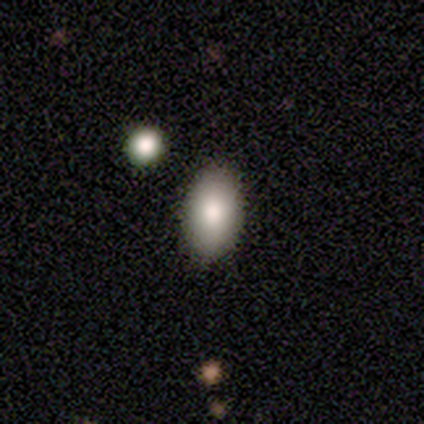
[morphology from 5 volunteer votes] Smooth or featured? 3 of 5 (60%) said smooth. How rounded? 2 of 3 (67%) said in between. Merging? 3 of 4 (75%) said none.